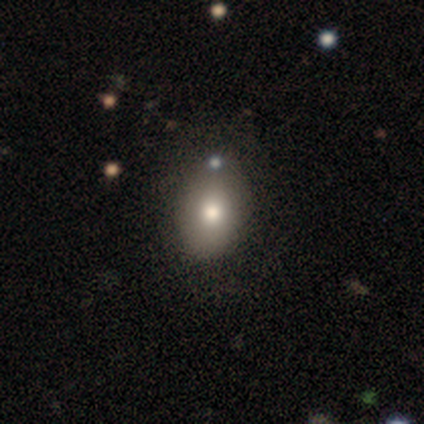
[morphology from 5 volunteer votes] Smooth or featured?
  - smooth: 80% *
  - star or artifact: 20%
  - featured or disk: 0%
How rounded?
  - in between: 75% *
  - round: 25%
  - cigar-shaped: 0%
Merging?
  - none: 50% *
  - minor disturbance: 25%
  - merger: 25%
  - major disturbance: 0%